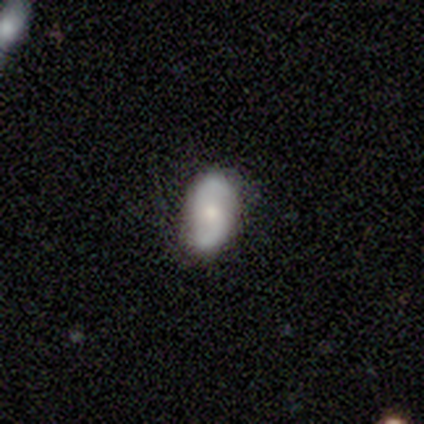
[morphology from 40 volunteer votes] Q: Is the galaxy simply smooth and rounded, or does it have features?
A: featured or disk — 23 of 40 (57%).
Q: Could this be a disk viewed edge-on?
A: no — 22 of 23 (96%).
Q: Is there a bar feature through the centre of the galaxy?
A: no — 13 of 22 (59%).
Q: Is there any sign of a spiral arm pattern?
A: yes — 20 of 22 (91%).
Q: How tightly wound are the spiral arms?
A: loose — 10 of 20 (50%).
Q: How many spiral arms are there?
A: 2 — 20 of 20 (100%).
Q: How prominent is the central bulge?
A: moderate — 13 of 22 (59%).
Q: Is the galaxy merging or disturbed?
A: none — 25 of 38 (66%).